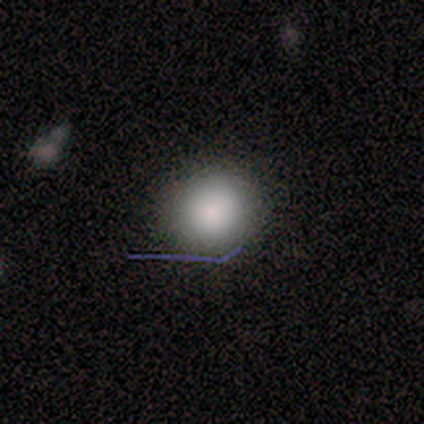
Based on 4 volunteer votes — This is clearly a smooth galaxy (100%). How rounded: clearly round (100%). Merging: clearly none (100%).